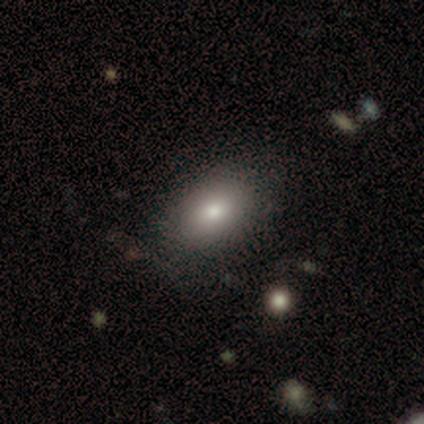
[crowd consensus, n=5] This is likely a smooth galaxy (60%). How rounded: clearly in between (100%). Merging: clearly none (100%).